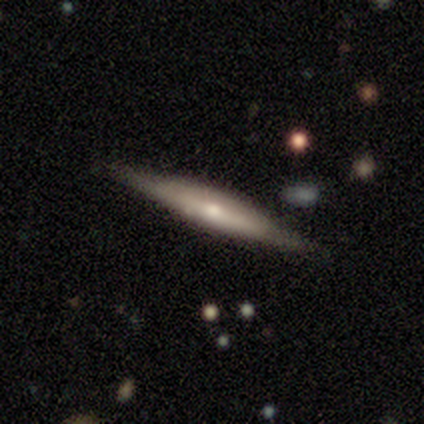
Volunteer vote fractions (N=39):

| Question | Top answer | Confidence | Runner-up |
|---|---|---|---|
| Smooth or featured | featured or disk | 59% | smooth (38%) |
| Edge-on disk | yes | 100% | — |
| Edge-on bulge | rounded | 78% | boxy (17%) |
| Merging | none | 84% | minor disturbance (13%) |